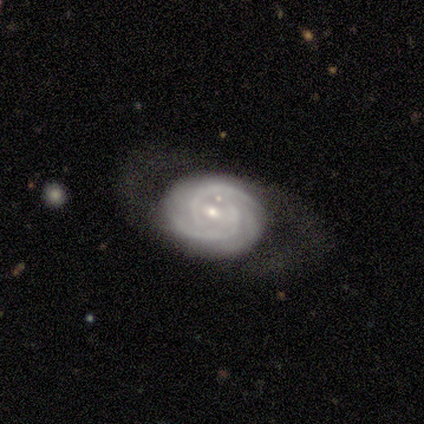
This appears to be a featured or disk galaxy (100%) with no bar (67%), 2 (33%, tied with 3 and can't tell) tight (100%) spiral arms (100%) and a small central bulge (100%). Merging: none (67%).